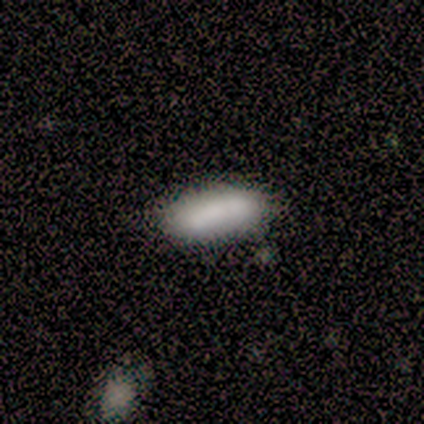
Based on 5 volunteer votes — A smooth galaxy with no disk features (80%) that is in between round and cigar-shaped (100%).

Vote fractions:
- Smooth or featured? smooth: 80% / featured or disk: 20% / star or artifact: 0%
- How rounded? in between: 100% / round: 0% / cigar-shaped: 0%
- Merging? none: 80% / minor disturbance: 20% / major disturbance: 0% / merger: 0%